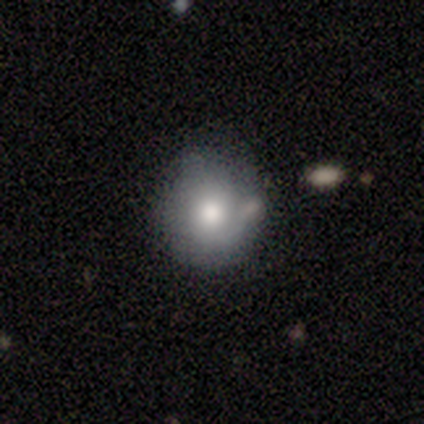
Morphology: type=smooth (80%); roundness=round (75%); merging=none (80%).